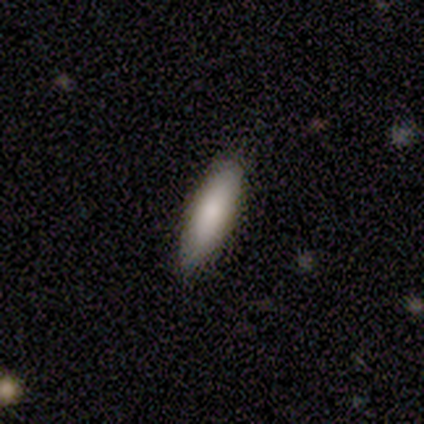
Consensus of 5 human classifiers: Q: Smooth or featured?
A: smooth (60%); runner-up: featured or disk (40%)
Q: How rounded?
A: cigar-shaped (67%); runner-up: in between (33%)
Q: Merging?
A: none (80%); runner-up: minor disturbance (20%)